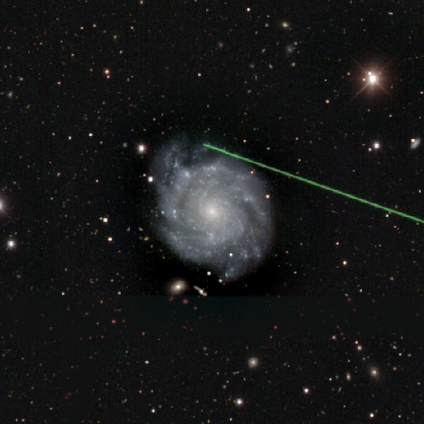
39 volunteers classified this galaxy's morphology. Smooth or featured? featured or disk (95%)
Edge-on disk? no (97%)
Bar? no (72%)
Spiral arms? yes (97%)
Spiral winding? tight (74%)
Spiral arm count? can't tell (34%)
Bulge size? small (86%)
Merging? none (61%)